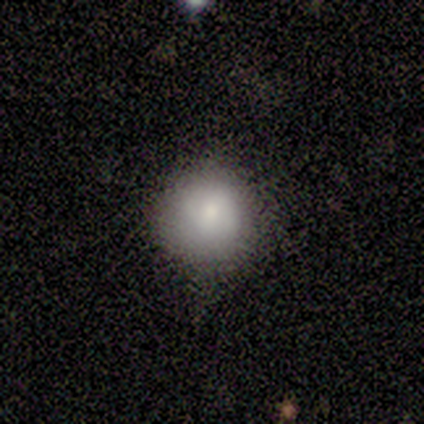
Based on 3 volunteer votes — Smooth or featured: smooth — 100%
How rounded: round — 67% (in between — 33%)
Merging: none — 33% (tied with minor disturbance — 33%; major disturbance — 33%)